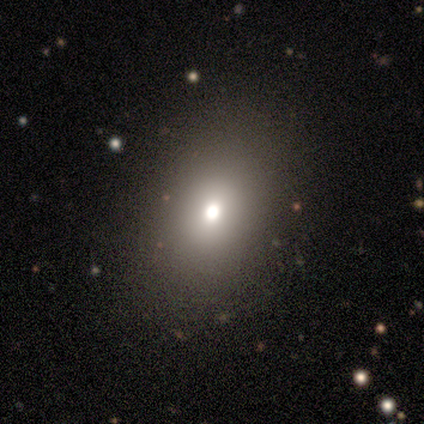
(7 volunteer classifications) A smooth galaxy with no disk features (71%) that is in between round and cigar-shaped (80%).

Vote fractions:
- Smooth or featured? smooth: 71% / star or artifact: 29% / featured or disk: 0%
- How rounded? in between: 80% / round: 20% / cigar-shaped: 0%
- Merging? none: 100% / minor disturbance: 0% / major disturbance: 0% / merger: 0%